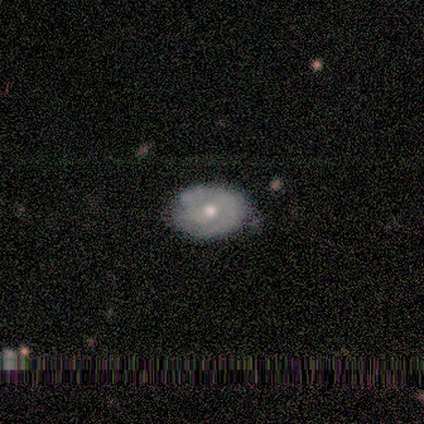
A smooth galaxy with no disk features (62%) that is in between round and cigar-shaped (80%). Merging: none (50%, tied with minor disturbance).